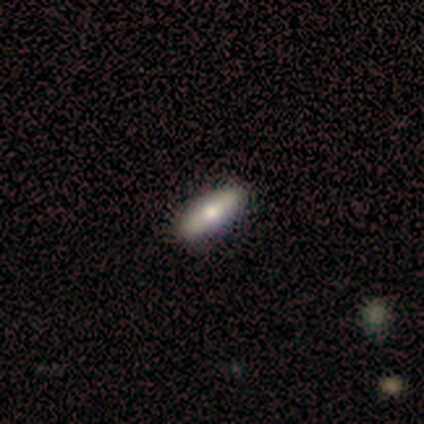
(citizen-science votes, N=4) Smooth or featured? 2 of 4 (50%) said smooth. How rounded? 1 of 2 (50%, tied with cigar-shaped) said in between. Merging? 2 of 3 (67%) said none.